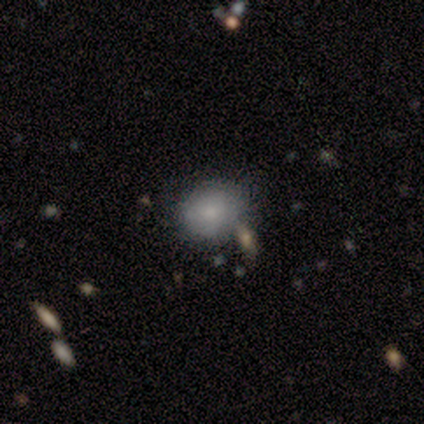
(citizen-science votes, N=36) This appears to be a smooth galaxy with no disk features (69%) that is round (68%). Merging: none (65%).